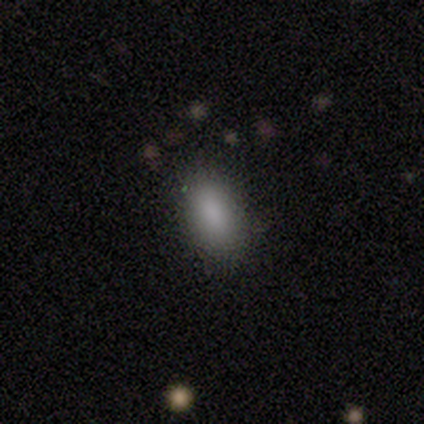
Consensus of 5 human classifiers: Smooth or featured? smooth (80%)
How rounded? in between (50%, tied with cigar-shaped)
Merging? none (100%)